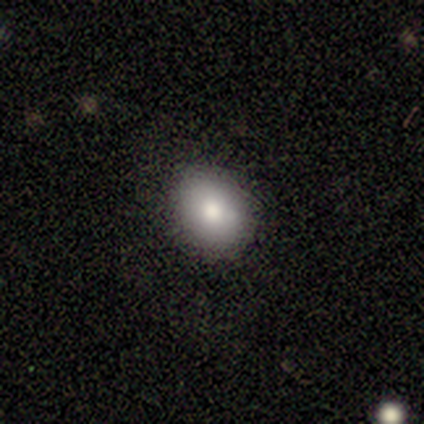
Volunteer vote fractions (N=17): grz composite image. It shows a smooth galaxy with no disk features (76%) that is round (54%). Merging: none (73%).